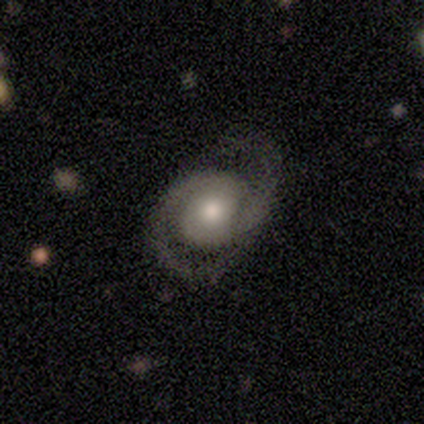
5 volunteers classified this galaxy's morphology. Smooth or featured?
  - featured or disk: 100% *
  - smooth: 0%
  - star or artifact: 0%
Edge-on disk?
  - no: 100% *
  - yes: 0%
Bar?
  - no: 100% *
  - strong: 0%
  - weak: 0%
Spiral arms?
  - yes: 100% *
  - no: 0%
Spiral winding?
  - tight: 40% * (tied)
  - medium: 40% * (tied)
  - loose: 20%
Spiral arm count?
  - 2: 100% *
  - 1: 0%
  - 3: 0%
  - 4: 0%
  - more than 4: 0%
  - can't tell: 0%
Bulge size?
  - moderate: 60% *
  - large: 20%
  - small: 20%
  - dominant: 0%
  - none: 0%
Merging?
  - none: 60% *
  - minor disturbance: 40%
  - major disturbance: 0%
  - merger: 0%